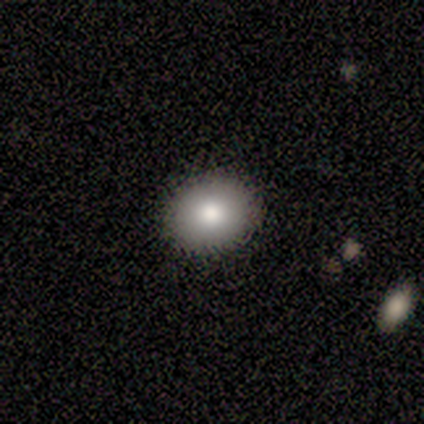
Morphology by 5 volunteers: smooth-or-featured: smooth: 60% | featured or disk: 40% | star or artifact: 0%
  how-rounded: round: 67% | cigar-shaped: 33% | in between: 0%
  merging: none: 60% | minor disturbance: 20% | merger: 20% | major disturbance: 0%